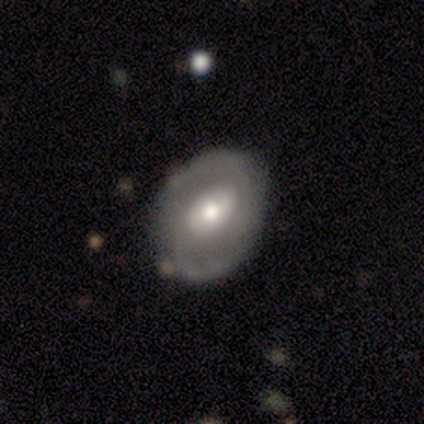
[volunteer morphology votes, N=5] A featured or disk galaxy (80%) with no bar (50%), 2 (100%) medium (50%, tied with loose) spiral arms (50%, tied with no) and a moderate central bulge (75%). Merging: none (100%).